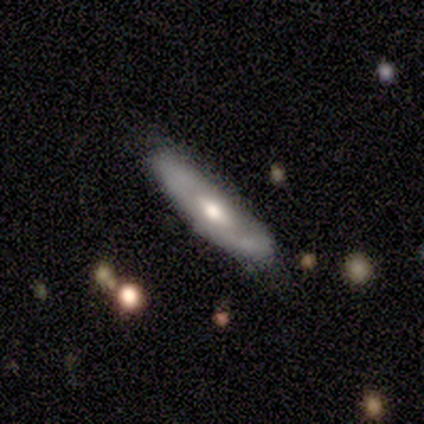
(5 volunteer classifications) Q: Smooth or featured?
A: featured or disk (60%); runner-up: smooth (40%)
Q: Edge-on disk?
A: yes (67%); runner-up: no (33%)
Q: Edge-on bulge?
A: rounded (100%)
Q: Merging?
A: none (100%)